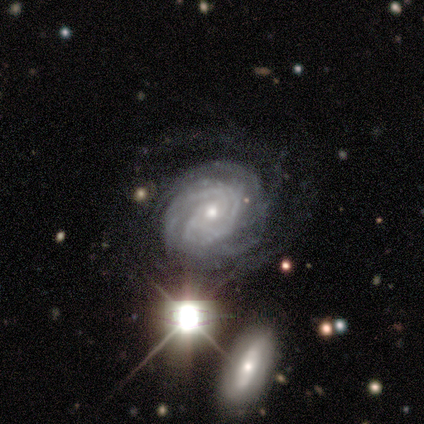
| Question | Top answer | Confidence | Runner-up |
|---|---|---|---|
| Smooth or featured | featured or disk | 100% | — |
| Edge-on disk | no | 100% | — |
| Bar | no | 100% | — |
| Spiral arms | yes | 100% | — |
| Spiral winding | tight | 100% | — |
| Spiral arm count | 2 | 40% | tied: 3 (40%) |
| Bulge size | small | 60% | moderate (40%) |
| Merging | none | 60% | major disturbance (40%) |